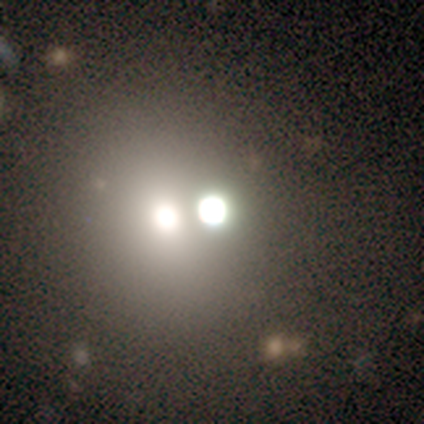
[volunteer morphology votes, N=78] Smooth or featured? 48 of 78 (62%) said smooth. How rounded? 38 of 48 (79%) said round. Merging? 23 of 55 (42%) said merger.